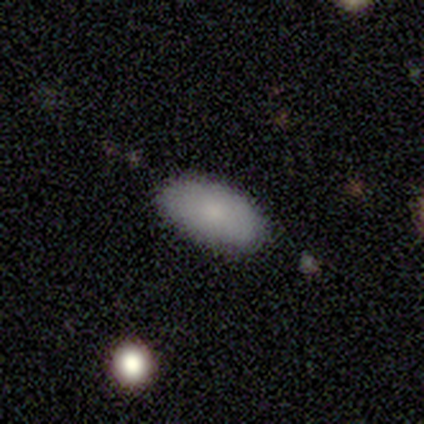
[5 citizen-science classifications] smooth 100%, featured or disk 0%, star or artifact 0%. Down the decision tree: how rounded — in between (100%); merging — none (100%).